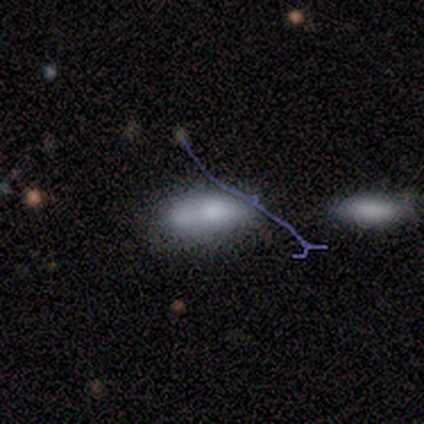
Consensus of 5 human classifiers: Smooth or featured? smooth (80%)
How rounded? in between (75%)
Merging? minor disturbance (60%)